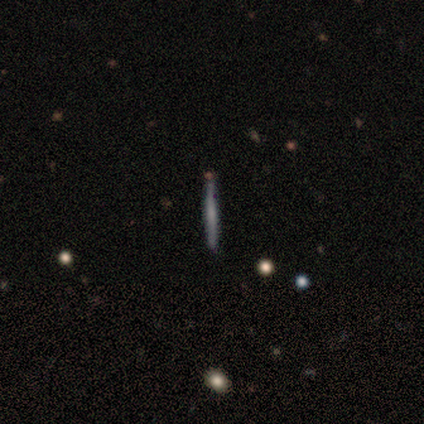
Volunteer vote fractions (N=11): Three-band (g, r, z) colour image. It shows a featured or disk galaxy (82%) viewed edge-on (100%) with no central bulge (67%). Merging: none (91%).